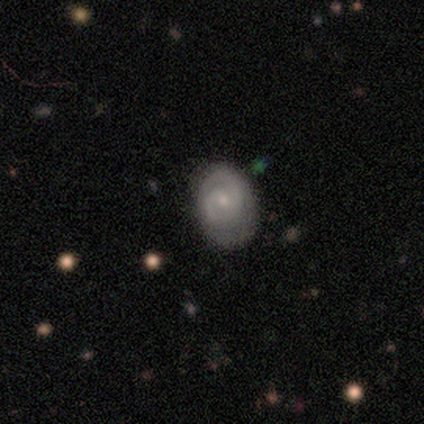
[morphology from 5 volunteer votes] This appears to be a featured or disk galaxy (80%) with no bar (75%), 2 (100%) tight (50%, tied with medium) spiral arms (100%) and a moderate central bulge (50%, tied with small). Merging: minor disturbance (60%).